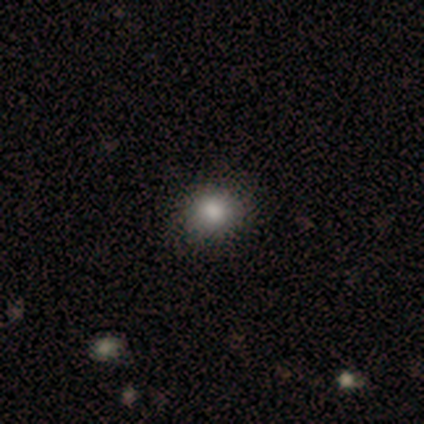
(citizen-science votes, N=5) Overall: smooth (80%). How rounded: round (100%). Merging: none (100%).